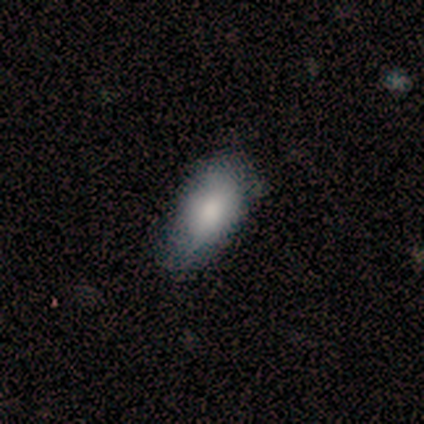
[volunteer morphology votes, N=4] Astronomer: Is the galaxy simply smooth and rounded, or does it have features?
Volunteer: featured or disk — 75%.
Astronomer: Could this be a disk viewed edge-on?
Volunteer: no — 100%.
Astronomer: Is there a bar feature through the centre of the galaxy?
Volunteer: no — 100%.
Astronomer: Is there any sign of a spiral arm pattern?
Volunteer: no — 100%.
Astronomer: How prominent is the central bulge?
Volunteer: small — 67%.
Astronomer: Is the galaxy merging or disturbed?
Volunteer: minor disturbance — 75%.